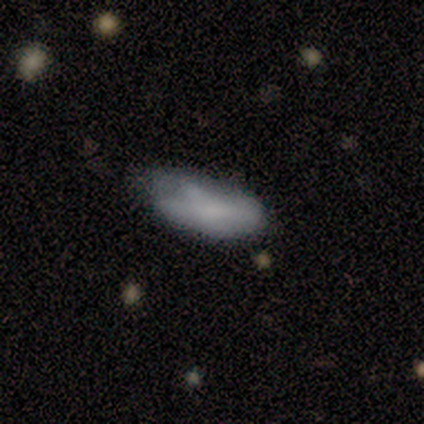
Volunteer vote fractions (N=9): smooth-or-featured: smooth: 78% | featured or disk: 22% | star or artifact: 0%
  how-rounded: in between: 86% | cigar-shaped: 14% | round: 0%
  merging: none: 33% (tied) | major disturbance: 33% (tied) | minor disturbance: 22% | merger: 11%